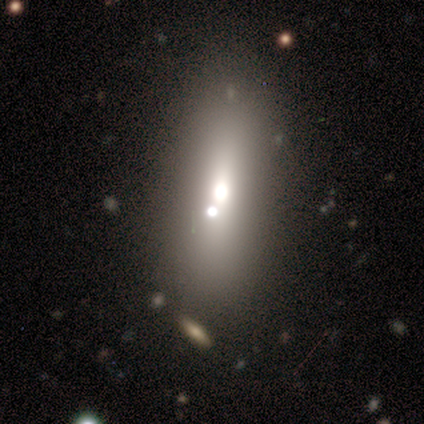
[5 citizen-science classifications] A smooth galaxy with no disk features (40%, tied with featured or disk) that is in between round and cigar-shaped (100%).

Vote fractions:
- Smooth or featured? smooth: 40% (tied) / featured or disk: 40% (tied) / star or artifact: 20%
- How rounded? in between: 100% / round: 0% / cigar-shaped: 0%
- Merging? none: 100% / minor disturbance: 0% / major disturbance: 0% / merger: 0%